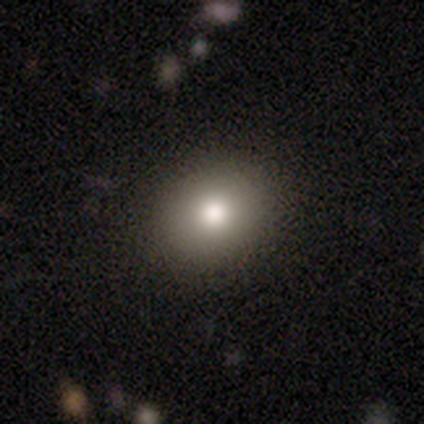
Smooth or featured?
  - smooth: 80% *
  - featured or disk: 20%
  - star or artifact: 0%
How rounded?
  - in between: 100% *
  - round: 0%
  - cigar-shaped: 0%
Merging?
  - none: 40% * (tied)
  - major disturbance: 40% * (tied)
  - minor disturbance: 20%
  - merger: 0%